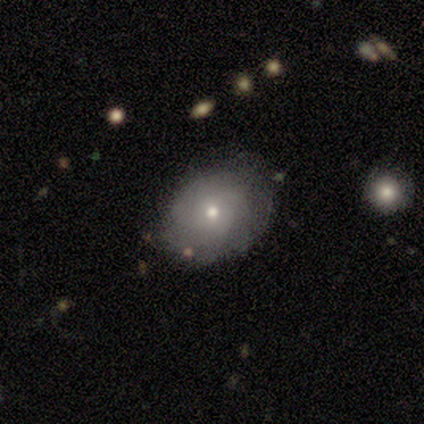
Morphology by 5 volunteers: type=smooth (100%); roundness=round (60%); merging=none (80%).